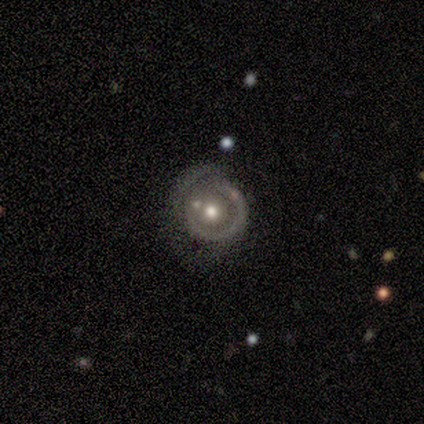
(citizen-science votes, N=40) Smooth or featured?
  - featured or disk: 65% *
  - smooth: 25%
  - star or artifact: 10%
Edge-on disk?
  - no: 96% *
  - yes: 4%
Bar?
  - no: 96% *
  - weak: 4%
  - strong: 0%
Spiral arms?
  - no: 64% *
  - yes: 36%
Bulge size?
  - moderate: 84% *
  - large: 8%
  - small: 8%
  - dominant: 0%
  - none: 0%
Merging?
  - none: 56% *
  - minor disturbance: 28%
  - major disturbance: 8%
  - merger: 8%